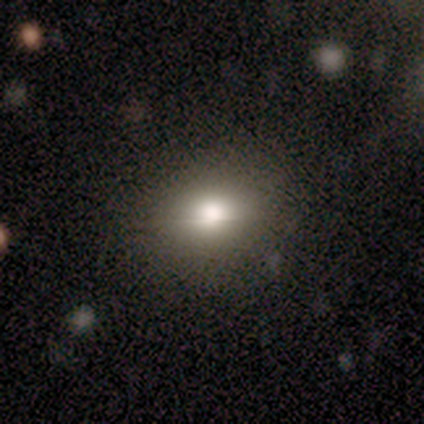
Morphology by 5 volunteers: smooth 40% (tied), star or artifact 40% (tied), featured or disk 20%. Down the decision tree: how rounded — in between (100%); merging — minor disturbance (67%).